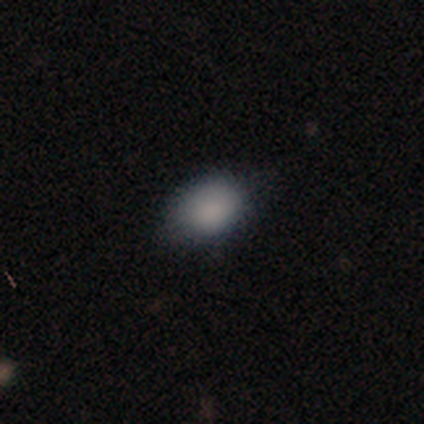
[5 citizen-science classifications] Morphology: type=smooth (100%); roundness=in between (100%); merging=minor disturbance (60%).